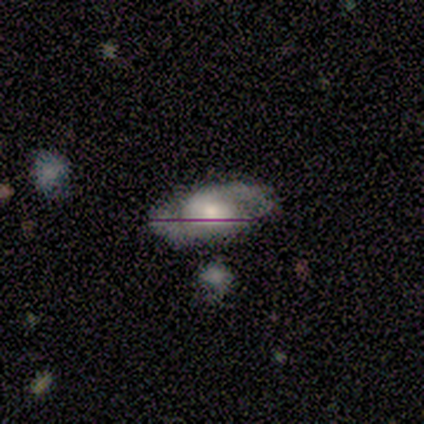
Smooth or featured? 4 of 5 (80%) said featured or disk. Edge-on disk? 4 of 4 (100%) said no. Bar? 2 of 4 (50%) said no. Spiral arms? 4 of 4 (100%) said yes. Spiral winding? 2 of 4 (50%, tied with medium) said tight. Spiral arm count? 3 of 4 (75%) said 2. Bulge size? 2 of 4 (50%) said moderate. Merging? 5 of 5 (100%) said none.